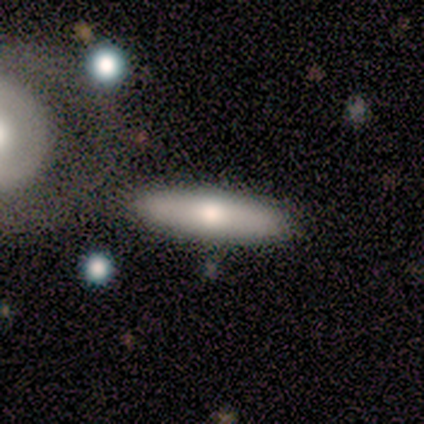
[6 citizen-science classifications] Morphology: type=smooth (83%); roundness=cigar-shaped (80%); merging=none (83%).